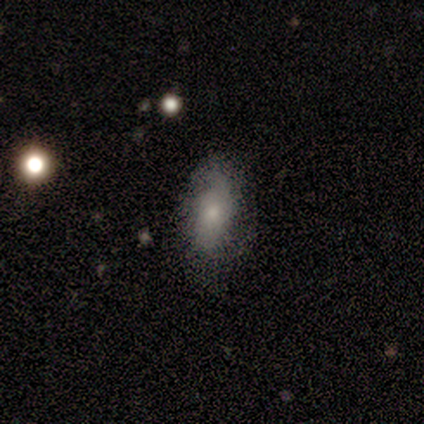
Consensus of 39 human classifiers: Volunteers were most divided on "smooth or featured": smooth: 51%, featured or disk: 38%, star or artifact: 10%. More confident: how rounded — in between (85%); merging — none (77%).